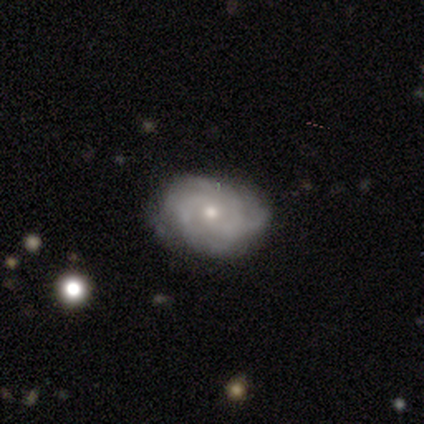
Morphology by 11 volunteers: Volunteers were most divided on "spiral arm count": 4: 50%, 3: 38%, can't tell: 12%, 1: 0%, 2: 0%, more than 4: 0%. More confident: spiral arms — yes (100%); spiral winding — tight (100%); edge-on disk — no (89%); bar — no (88%); smooth or featured — featured or disk (82%); merging — none (73%); bulge size — small (62%).